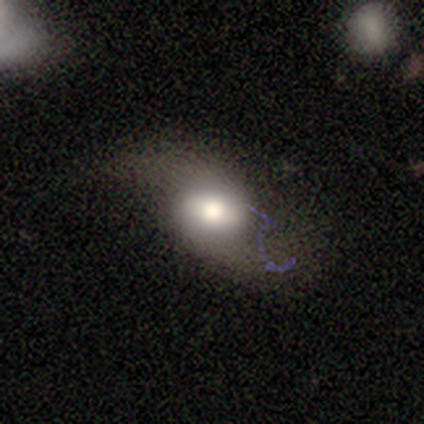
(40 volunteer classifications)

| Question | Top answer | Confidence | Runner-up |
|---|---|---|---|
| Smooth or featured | featured or disk | 68% | smooth (28%) |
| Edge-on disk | no | 89% | yes (11%) |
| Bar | weak | 50% | no (33%) |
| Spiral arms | yes | 96% | no (4%) |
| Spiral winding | loose | 100% | — |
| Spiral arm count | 2 | 100% | — |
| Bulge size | moderate | 50% | large (42%) |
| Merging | none | 47% | major disturbance (26%) |